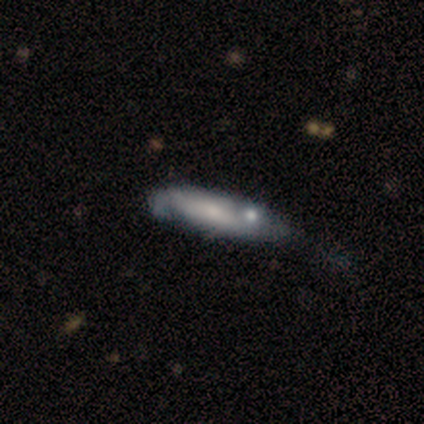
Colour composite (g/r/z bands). It shows a smooth galaxy with no disk features (50%) that is cigar-shaped (80%). Merging: minor disturbance (32%).